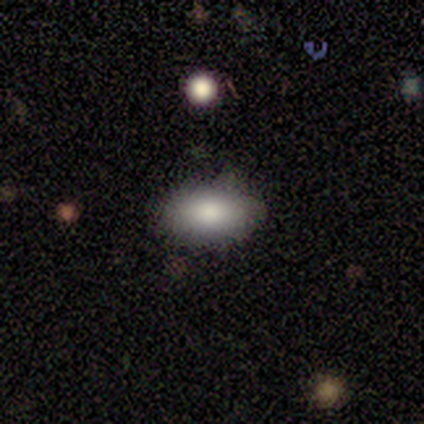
Smooth or featured: smooth — 57% (star or artifact — 43%)
How rounded: round — 50% (tied with in between — 50%)
Merging: none — 75% (minor disturbance — 25%)